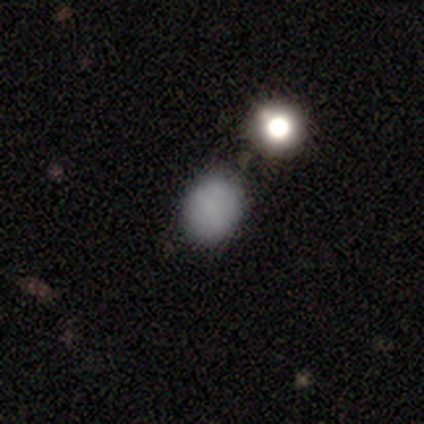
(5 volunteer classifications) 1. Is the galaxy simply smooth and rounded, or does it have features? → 80% smooth, 20% star or artifact, 0% featured or disk.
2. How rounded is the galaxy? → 50% round (tied), 50% in between (tied), 0% cigar-shaped.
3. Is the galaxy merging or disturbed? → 100% none, 0% minor disturbance, 0% major disturbance, 0% merger.